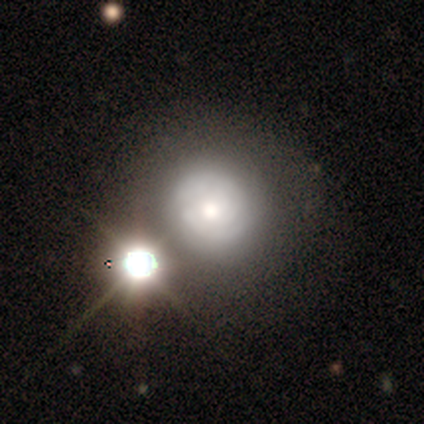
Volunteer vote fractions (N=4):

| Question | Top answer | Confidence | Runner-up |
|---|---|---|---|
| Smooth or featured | featured or disk | 100% | — |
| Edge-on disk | no | 100% | — |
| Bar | no | 75% | weak (25%) |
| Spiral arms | yes | 75% | no (25%) |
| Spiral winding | tight | 100% | — |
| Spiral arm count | can't tell | 67% | 2 (33%) |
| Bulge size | large | 50% | tied: moderate (50%) |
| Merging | none | 100% | — |